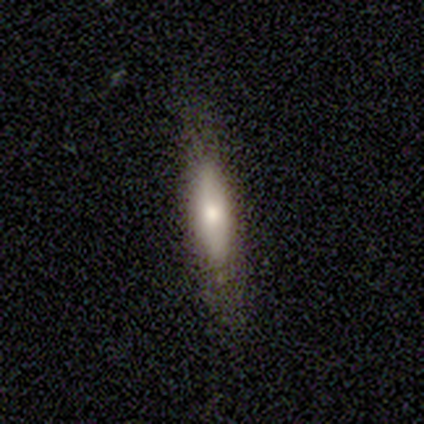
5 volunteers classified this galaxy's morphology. Smooth or featured: smooth — 100%
How rounded: cigar-shaped — 60% (in between — 40%)
Merging: minor disturbance — 60% (none — 20%)